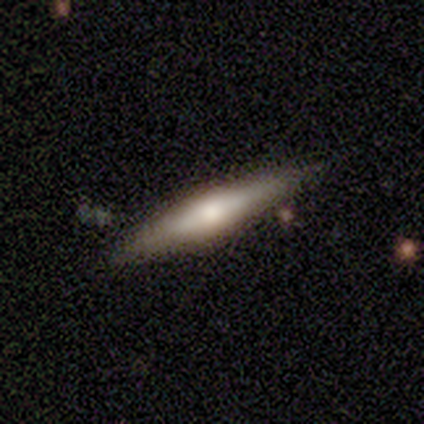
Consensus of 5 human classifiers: Smooth or featured?
  - smooth: 60% *
  - featured or disk: 40%
  - star or artifact: 0%
How rounded?
  - cigar-shaped: 100% *
  - round: 0%
  - in between: 0%
Merging?
  - none: 60% *
  - minor disturbance: 20%
  - major disturbance: 20%
  - merger: 0%